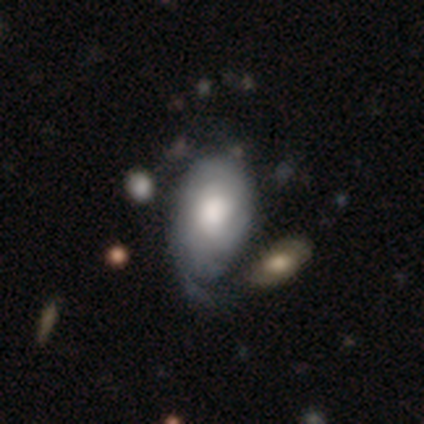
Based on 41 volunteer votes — Smooth or featured? 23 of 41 (56%) said featured or disk. Edge-on disk? 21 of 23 (91%) said no. Bar? 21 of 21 (100%) said no. Spiral arms? 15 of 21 (71%) said yes. Spiral winding? 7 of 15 (47%) said tight. Spiral arm count? 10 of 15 (67%) said can't tell. Bulge size? 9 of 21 (43%) said moderate. Merging? 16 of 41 (39%) said minor disturbance.